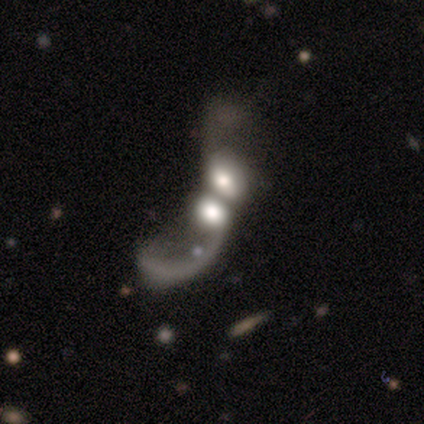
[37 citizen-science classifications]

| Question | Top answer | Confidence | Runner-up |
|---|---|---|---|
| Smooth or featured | featured or disk | 70% | smooth (24%) |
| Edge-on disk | no | 92% | yes (8%) |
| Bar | no | 88% | weak (12%) |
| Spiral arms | no | 58% | yes (42%) |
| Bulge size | large | 50% | dominant (25%) |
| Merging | merger | 54% | major disturbance (6%) |